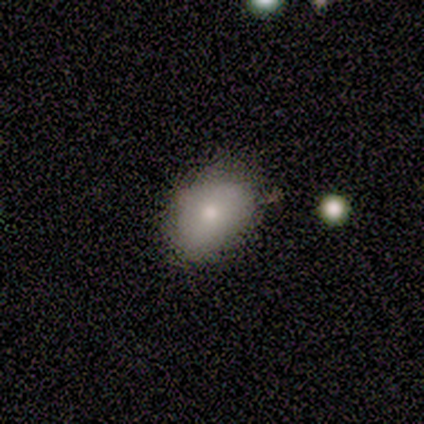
smooth 67%, star or artifact 22%, featured or disk 11%. Down the decision tree: how rounded — in between (83%); merging — none (57%).